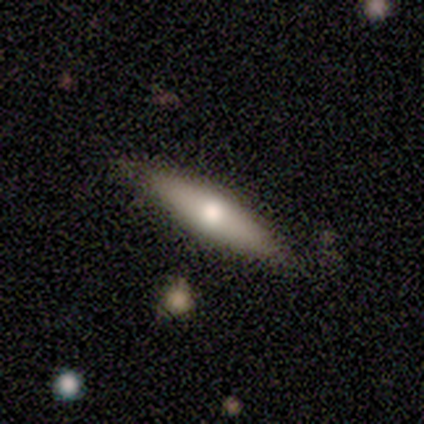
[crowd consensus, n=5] Q: Smooth or featured?
A: featured or disk (60%); runner-up: smooth (40%)
Q: Edge-on disk?
A: yes (67%); runner-up: no (33%)
Q: Edge-on bulge?
A: rounded (100%)
Q: Merging?
A: none (100%)